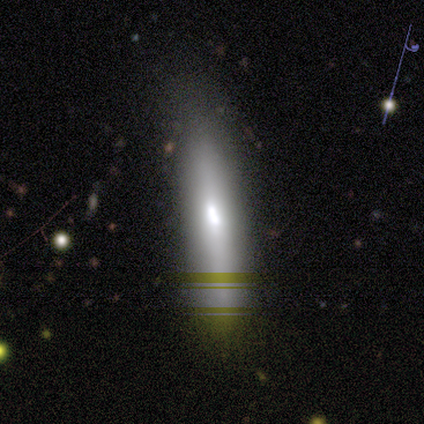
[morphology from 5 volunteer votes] Smooth or featured? star or artifact (60%)